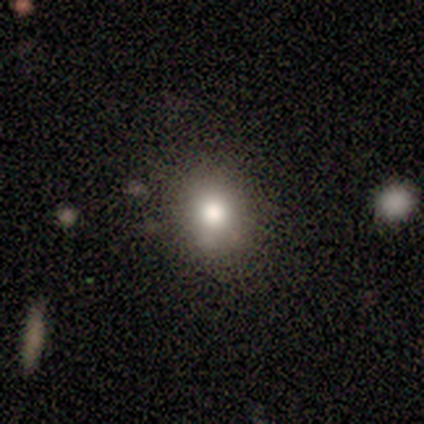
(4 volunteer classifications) Overall: smooth (75%). How rounded: round (67%; in between 33%). Merging: none (50%, tied with minor disturbance).